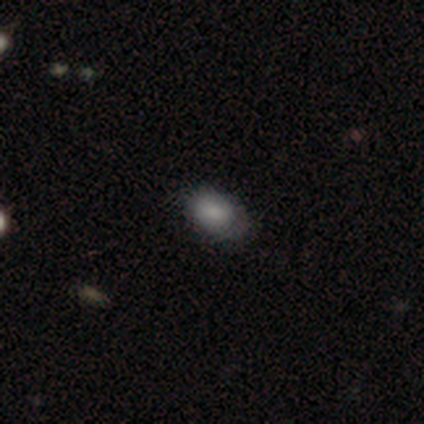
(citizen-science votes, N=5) This is likely a smooth galaxy (60%). How rounded: likely in between (67%). Merging: possibly none (50%, tied with minor disturbance).